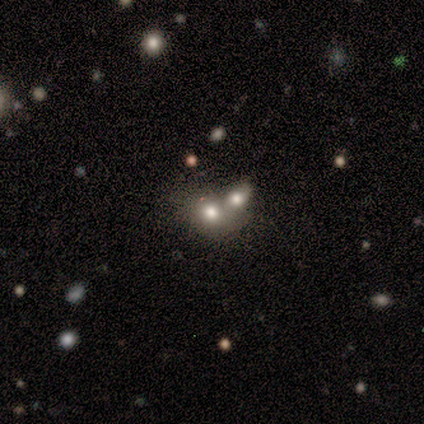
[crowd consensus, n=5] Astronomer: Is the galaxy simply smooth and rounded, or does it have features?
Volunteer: smooth — 60% (runner-up: star or artifact, 40%).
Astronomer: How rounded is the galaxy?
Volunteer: in between — 67%.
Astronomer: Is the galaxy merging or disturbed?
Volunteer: merger — 67%.